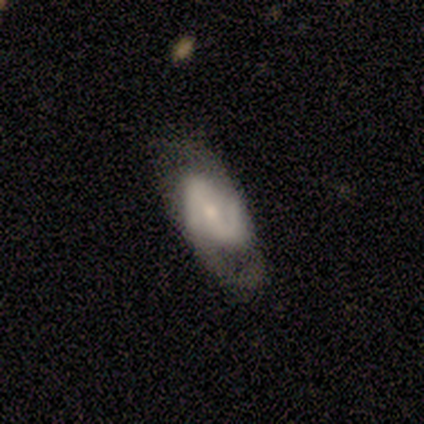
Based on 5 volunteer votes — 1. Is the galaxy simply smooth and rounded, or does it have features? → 60% featured or disk, 20% smooth, 20% star or artifact.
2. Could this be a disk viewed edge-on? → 100% no, 0% yes.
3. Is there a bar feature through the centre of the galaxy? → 67% weak, 33% no, 0% strong.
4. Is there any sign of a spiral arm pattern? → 100% yes, 0% no.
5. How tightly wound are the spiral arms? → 67% medium, 33% loose, 0% tight.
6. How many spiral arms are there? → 100% 2, 0% 1, 0% 3, 0% 4, 0% more than 4, 0% can't tell.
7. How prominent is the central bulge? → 67% small, 33% moderate, 0% dominant, 0% large, 0% none.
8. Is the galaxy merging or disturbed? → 75% none, 25% minor disturbance, 0% major disturbance, 0% merger.